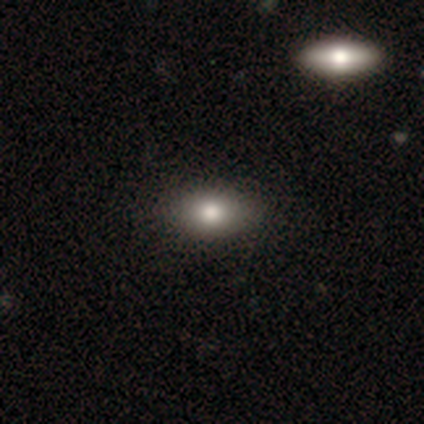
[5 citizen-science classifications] smooth 100%, featured or disk 0%, star or artifact 0%. Down the decision tree: how rounded — in between (100%); merging — none (80%).